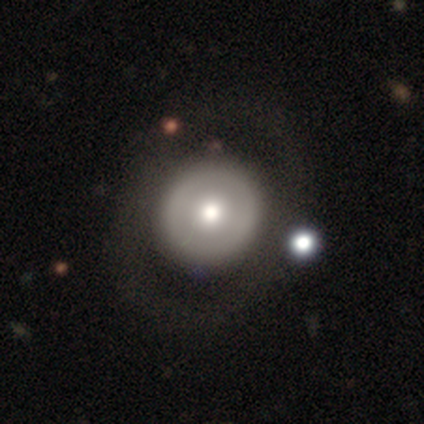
Smooth or featured? smooth (62%)
How rounded? round (100%)
Merging? none (88%)